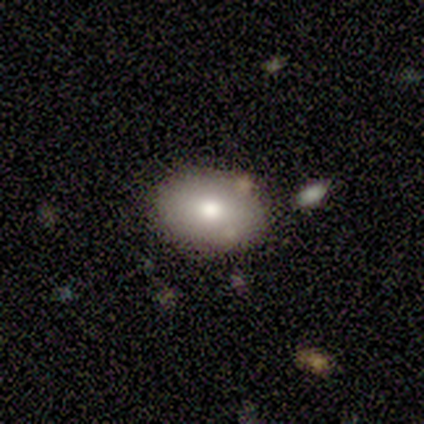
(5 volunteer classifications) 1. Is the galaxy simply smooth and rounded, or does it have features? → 80% smooth, 20% star or artifact, 0% featured or disk.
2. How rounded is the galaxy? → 100% in between, 0% round, 0% cigar-shaped.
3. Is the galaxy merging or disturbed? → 100% none, 0% minor disturbance, 0% major disturbance, 0% merger.